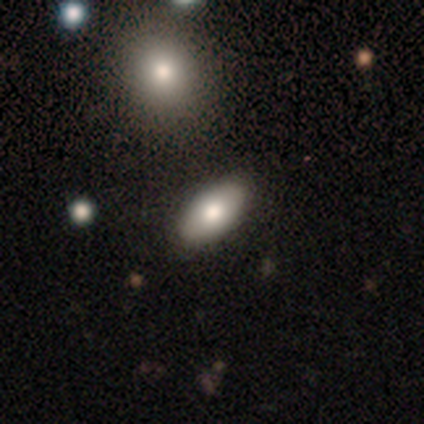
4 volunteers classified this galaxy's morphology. smooth-or-featured: smooth: 100% | featured or disk: 0% | star or artifact: 0%
  how-rounded: in between: 100% | round: 0% | cigar-shaped: 0%
  merging: none: 100% | minor disturbance: 0% | major disturbance: 0% | merger: 0%